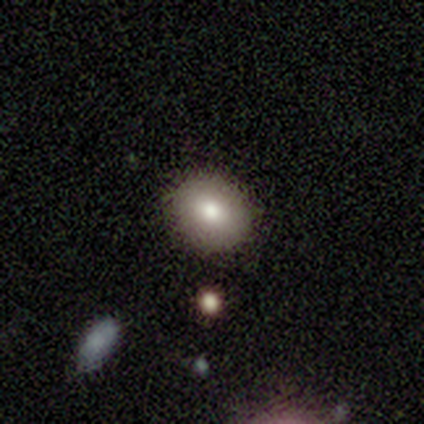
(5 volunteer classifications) smooth_or_featured: smooth (p=0.80) [alt: star or artifact p=0.20]
how_rounded: round (p=0.75) [alt: in between p=0.25]
merging: none (p=1.00)